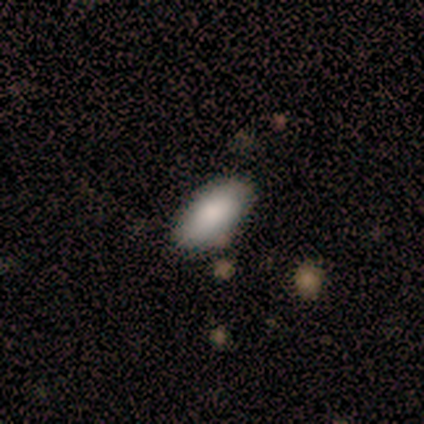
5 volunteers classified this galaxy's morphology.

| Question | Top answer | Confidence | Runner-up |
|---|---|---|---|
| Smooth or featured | smooth | 100% | — |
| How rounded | in between | 100% | — |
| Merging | none | 80% | minor disturbance (20%) |